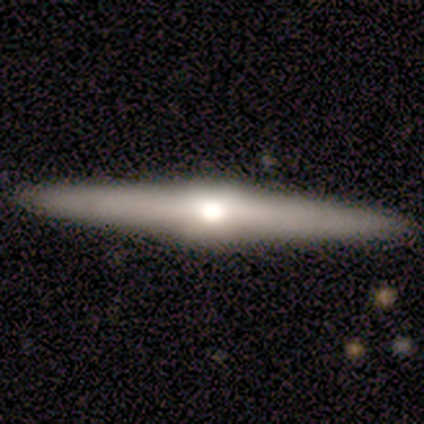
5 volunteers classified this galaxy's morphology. A featured or disk galaxy (100%) viewed edge-on (100%) with a rounded central bulge (80%). Merging: none (100%).